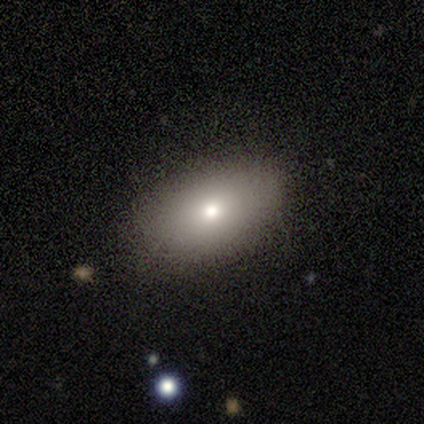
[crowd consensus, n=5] smooth 100%, featured or disk 0%, star or artifact 0%. Down the decision tree: how rounded — in between (100%); merging — none (100%).